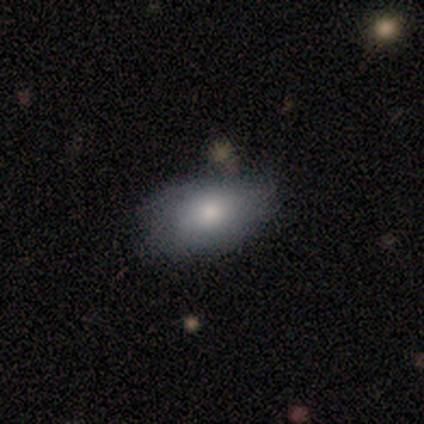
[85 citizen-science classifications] This appears to be a smooth galaxy with no disk features (72%) that is in between round and cigar-shaped (97%). Merging: none (63%).